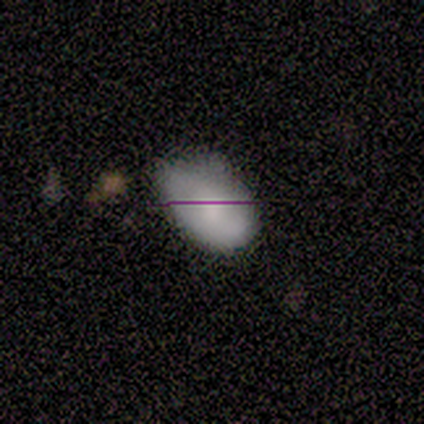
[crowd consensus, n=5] This is clearly a smooth galaxy (80%). How rounded: clearly in between (100%). Merging: likely none (60%).